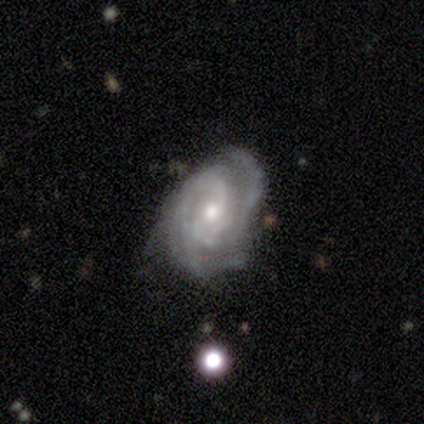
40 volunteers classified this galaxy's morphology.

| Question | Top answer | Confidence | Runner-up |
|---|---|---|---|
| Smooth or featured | featured or disk | 90% | star or artifact (10%) |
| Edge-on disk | no | 97% | yes (3%) |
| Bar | weak | 51% | no (43%) |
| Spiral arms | yes | 97% | no (3%) |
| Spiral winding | tight | 59% | medium (32%) |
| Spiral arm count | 2 | 56% | 3 (18%) |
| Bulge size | moderate | 54% | small (40%) |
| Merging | none | 64% | minor disturbance (25%) |